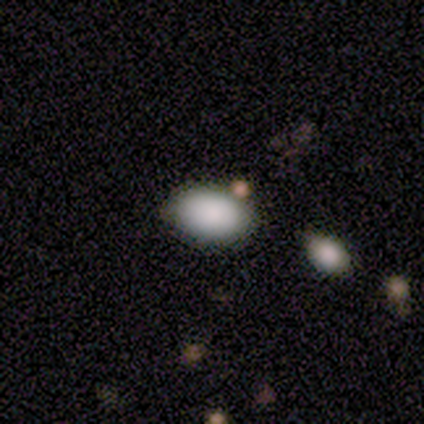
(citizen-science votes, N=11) A smooth galaxy with no disk features (91%) that is in between round and cigar-shaped (100%). Merging: none (73%).